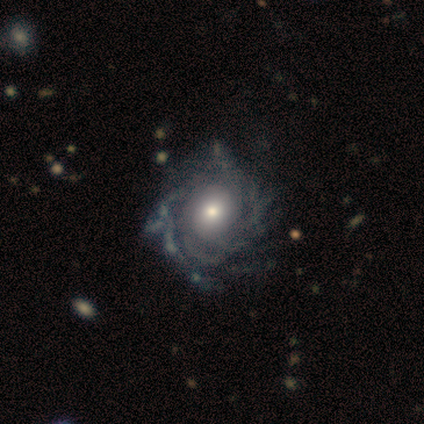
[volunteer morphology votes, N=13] This appears to be a featured or disk galaxy (92%) with no bar (83%), tight (80%) spiral arms (83%) and a moderate central bulge (58%). Merging: none (75%).